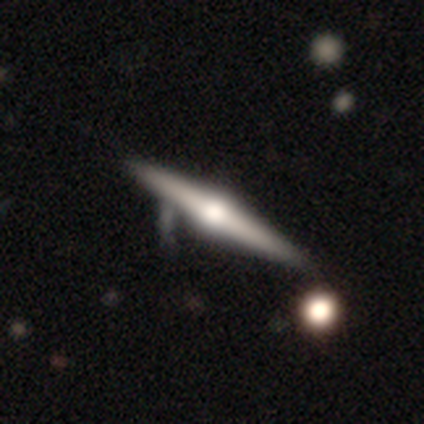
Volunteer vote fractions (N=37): Overall: featured or disk (89%). Edge-on disk: yes (100%). Edge-on bulge: rounded (97%). Merging: none (39%; minor disturbance 17%).